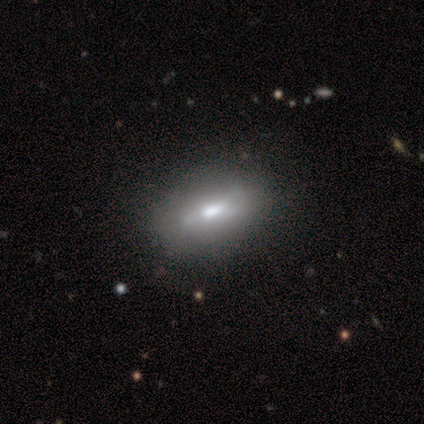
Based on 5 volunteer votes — smooth-or-featured: smooth: 60% | featured or disk: 20% | star or artifact: 20%
  how-rounded: in between: 67% | round: 33% | cigar-shaped: 0%
  merging: none: 100% | minor disturbance: 0% | major disturbance: 0% | merger: 0%